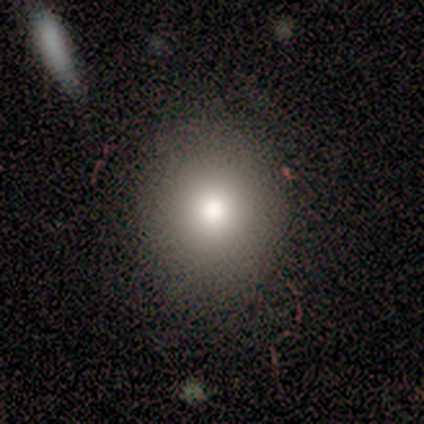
Volunteers were most divided on "merging": none: 50%, minor disturbance: 15%, major disturbance: 0%, merger: 0%. More confident: how rounded — round (79%); smooth or featured — smooth (74%).